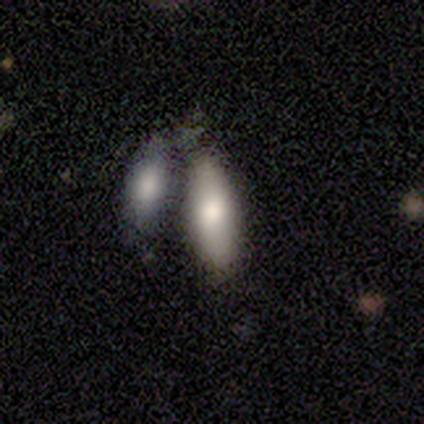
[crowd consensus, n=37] A smooth galaxy with no disk features (78%) that is in between round and cigar-shaped (69%). Merging: merger (52%).